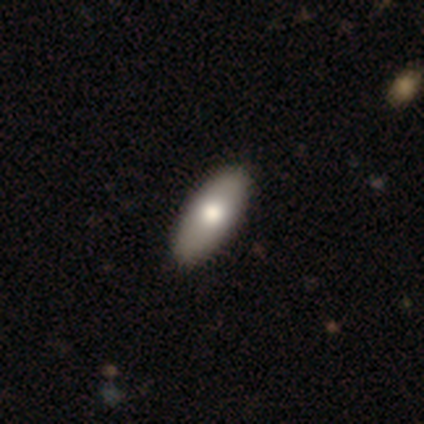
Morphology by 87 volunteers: Smooth or featured?
  - smooth: 76% *
  - featured or disk: 17%
  - star or artifact: 7%
How rounded?
  - in between: 89% *
  - cigar-shaped: 11%
  - round: 0%
Merging?
  - none: 85% *
  - minor disturbance: 15%
  - major disturbance: 0%
  - merger: 0%